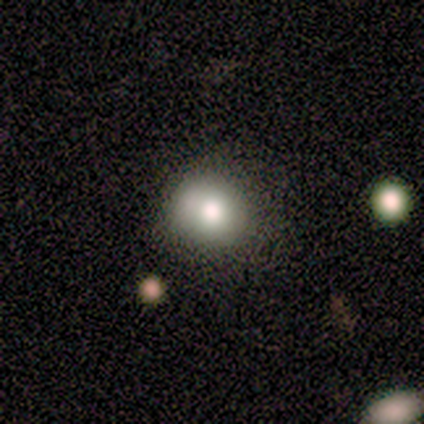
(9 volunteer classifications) Overall: smooth (78%). How rounded: round (86%). Merging: none (88%).